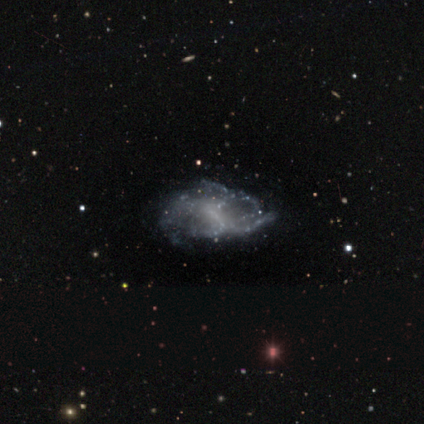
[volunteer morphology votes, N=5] featured or disk 60%, smooth 40%, star or artifact 0%. Down the decision tree: edge-on disk — no (100%); bar — weak (67%); spiral arms — no (100%); bulge size — small (67%); merging — minor disturbance (40%).